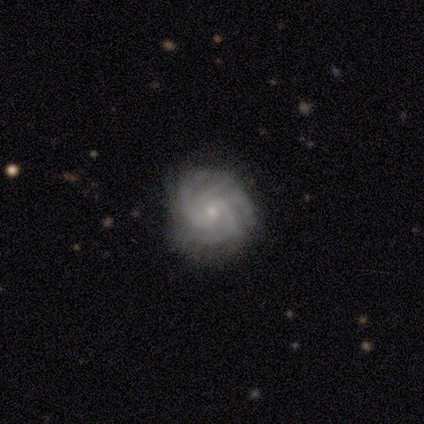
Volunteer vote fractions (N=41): Smooth or featured? 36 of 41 (88%) said featured or disk. Edge-on disk? 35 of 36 (97%) said no. Bar? 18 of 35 (51%) said weak. Spiral arms? 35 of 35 (100%) said yes. Spiral winding? 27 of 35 (77%) said tight. Spiral arm count? 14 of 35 (40%) said 4. Bulge size? 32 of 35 (91%) said small. Merging? 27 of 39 (69%) said none.